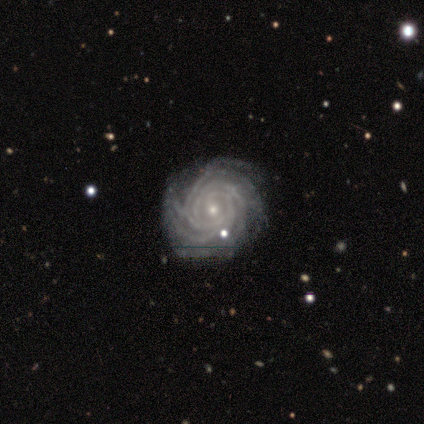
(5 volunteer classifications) Morphology: type=featured or disk (100%); edge-on=no (100%); bar=no (80%); spiral arms=yes (100%); winding=tight (100%); arm count=more than 4 (80%); bulge=small (100%); merging=none (80%).